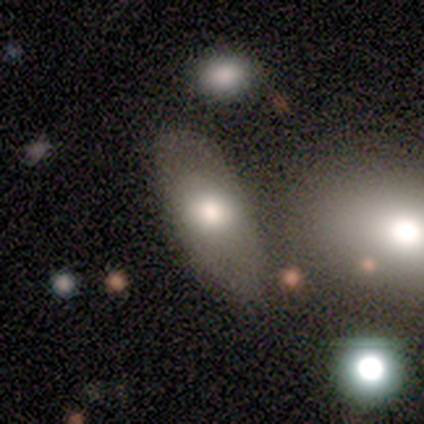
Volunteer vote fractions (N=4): A smooth galaxy with no disk features (100%) that is in between round and cigar-shaped (75%).

Vote fractions:
- Smooth or featured? smooth: 100% / featured or disk: 0% / star or artifact: 0%
- How rounded? in between: 75% / round: 25% / cigar-shaped: 0%
- Merging? none: 75% / minor disturbance: 25% / major disturbance: 0% / merger: 0%